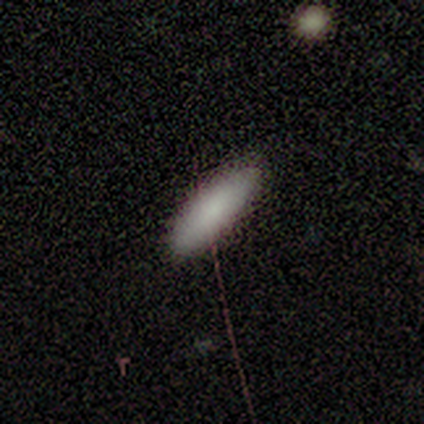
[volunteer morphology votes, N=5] This appears to be a smooth galaxy with no disk features (100%) that is in between round and cigar-shaped (80%). Merging: none (100%).